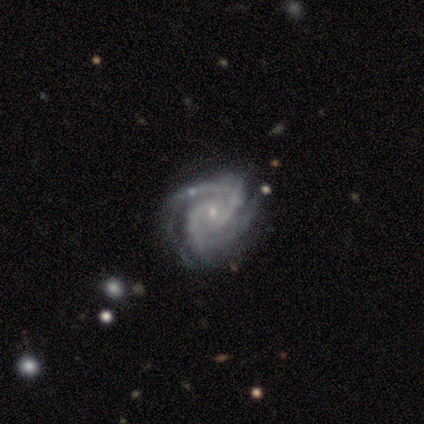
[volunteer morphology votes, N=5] Smooth or featured? 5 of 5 (100%) said featured or disk. Edge-on disk? 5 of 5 (100%) said no. Bar? 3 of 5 (60%) said no. Spiral arms? 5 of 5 (100%) said yes. Spiral winding? 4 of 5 (80%) said tight. Spiral arm count? 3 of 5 (60%) said 3. Bulge size? 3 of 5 (60%) said small. Merging? 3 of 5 (60%) said none.